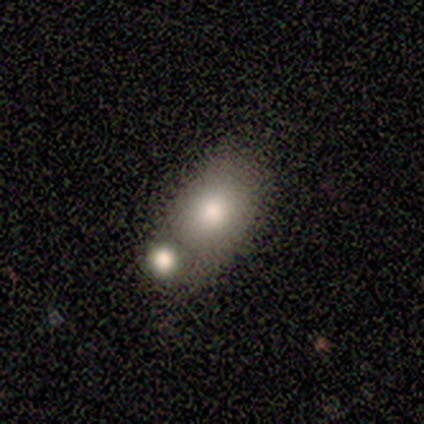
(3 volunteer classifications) This is marginally a smooth galaxy (33%, tied with featured or disk and star or artifact). How rounded: clearly in between (100%). Merging: clearly merger (100%).